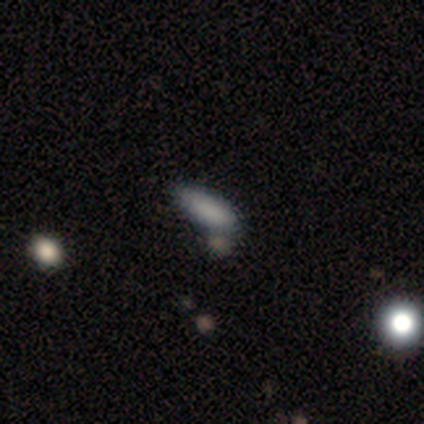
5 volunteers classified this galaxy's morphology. A smooth galaxy with no disk features (100%) that is in between round and cigar-shaped (100%). Merging: none (100%).